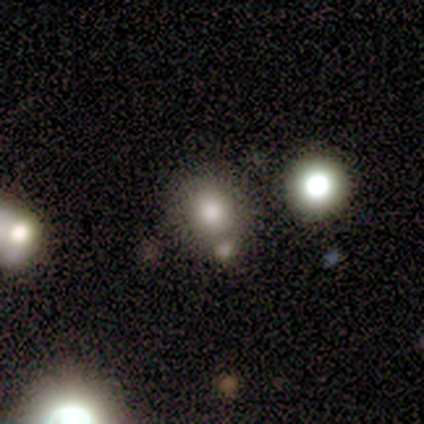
Overall: smooth (60%; star or artifact 40%). How rounded: round (100%). Merging: none (67%; merger 33%).